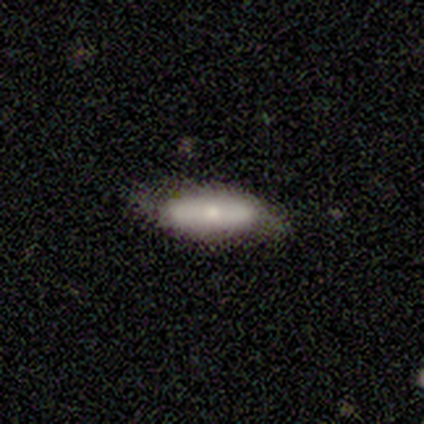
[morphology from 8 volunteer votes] Smooth or featured? smooth (62%)
How rounded? cigar-shaped (60%)
Merging? none (86%)